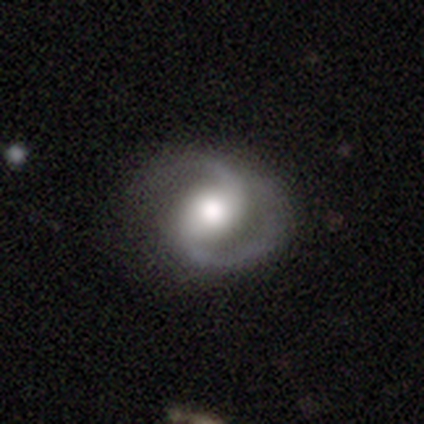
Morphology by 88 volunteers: Smooth or featured?
  - featured or disk: 94% *
  - star or artifact: 3%
  - smooth: 2%
Edge-on disk?
  - no: 95% *
  - yes: 5%
Bar?
  - no: 42% *
  - weak: 41%
  - strong: 18%
Spiral arms?
  - yes: 99% *
  - no: 1%
Spiral winding?
  - medium: 60% *
  - tight: 26%
  - loose: 14%
Spiral arm count?
  - 2: 99% *
  - 1: 1%
  - 3: 0%
  - 4: 0%
  - more than 4: 0%
  - can't tell: 0%
Bulge size?
  - moderate: 43% *
  - large: 41%
  - small: 13%
  - dominant: 3%
  - none: 1%
Merging?
  - none: 72% *
  - minor disturbance: 14%
  - major disturbance: 14%
  - merger: 0%